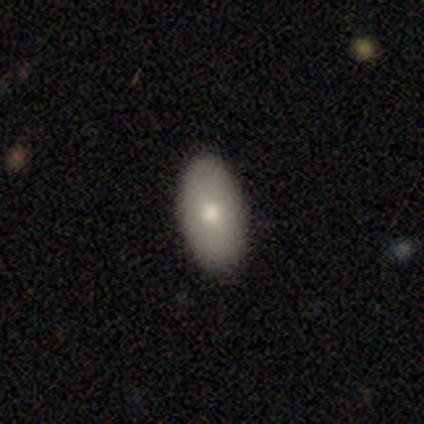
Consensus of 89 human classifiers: This appears to be a smooth galaxy with no disk features (81%) that is in between round and cigar-shaped (88%). Merging: none (94%).